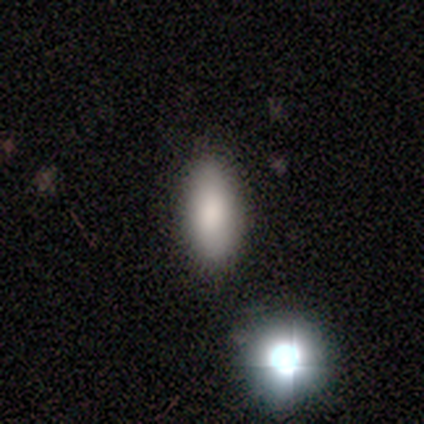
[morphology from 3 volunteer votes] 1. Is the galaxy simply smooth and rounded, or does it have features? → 100% smooth, 0% featured or disk, 0% star or artifact.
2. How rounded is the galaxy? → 100% in between, 0% round, 0% cigar-shaped.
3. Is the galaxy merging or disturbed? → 100% none, 0% minor disturbance, 0% major disturbance, 0% merger.